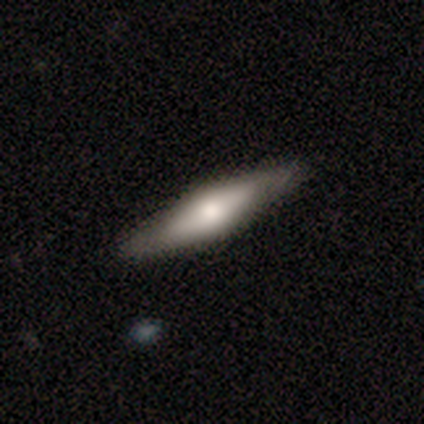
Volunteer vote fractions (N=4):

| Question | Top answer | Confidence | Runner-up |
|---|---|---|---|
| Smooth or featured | featured or disk | 100% | — |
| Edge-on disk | yes | 100% | — |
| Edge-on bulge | rounded | 100% | — |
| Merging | none | 100% | — |